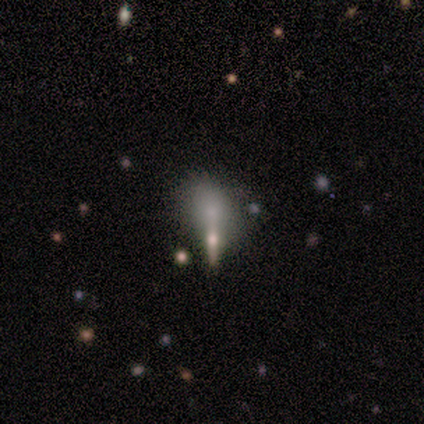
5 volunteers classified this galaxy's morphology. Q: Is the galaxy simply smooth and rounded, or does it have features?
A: smooth — 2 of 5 (40%, tied with featured or disk).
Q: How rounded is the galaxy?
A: in between — 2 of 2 (100%).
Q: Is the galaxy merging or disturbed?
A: minor disturbance — 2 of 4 (50%, tied with merger).